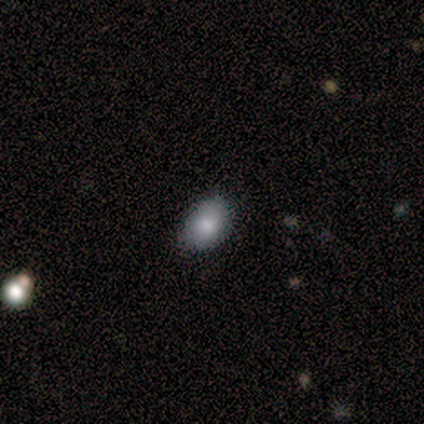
smooth 67%, star or artifact 33%, featured or disk 0%. Down the decision tree: how rounded — round (100%); merging — none (100%).